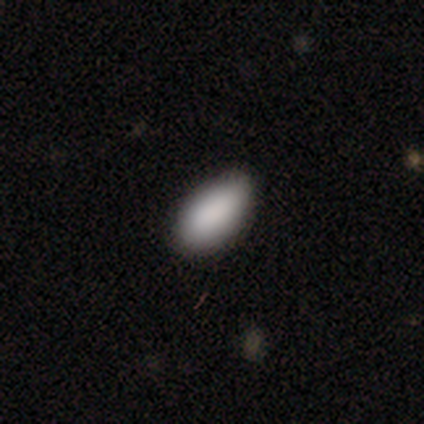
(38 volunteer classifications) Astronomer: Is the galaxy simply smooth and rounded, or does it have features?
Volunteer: smooth — 95%.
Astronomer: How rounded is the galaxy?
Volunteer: in between — 94%.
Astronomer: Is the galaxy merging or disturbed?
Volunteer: none — 82%.